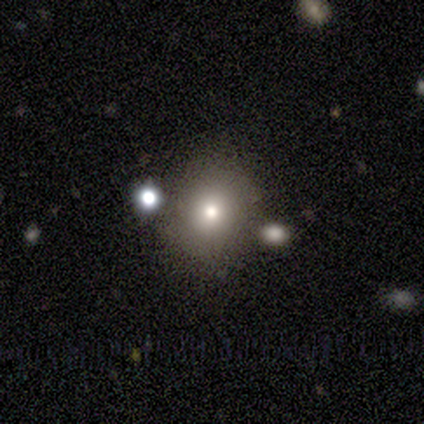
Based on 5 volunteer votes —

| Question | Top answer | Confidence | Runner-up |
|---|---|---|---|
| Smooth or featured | smooth | 60% | featured or disk (20%) |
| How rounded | round | 67% | cigar-shaped (33%) |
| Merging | none | 75% | major disturbance (25%) |